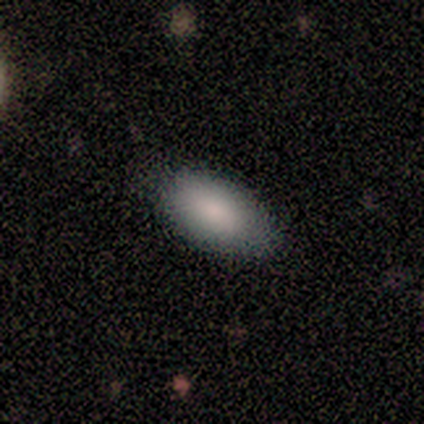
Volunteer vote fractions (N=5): Consensus on every question: smooth or featured — smooth (100%); how rounded — in between (100%); merging — none (100%).